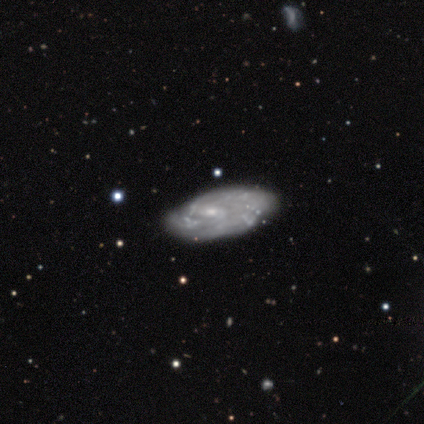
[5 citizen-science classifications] Smooth or featured: featured or disk — 100%
Edge-on disk: no — 100%
Bar: weak — 60% (no — 40%)
Spiral arms: yes — 80% (no — 20%)
Spiral winding: tight — 75% (medium — 25%)
Spiral arm count: can't tell — 75% (2 — 25%)
Bulge size: small — 80% (moderate — 20%)
Merging: none — 60% (major disturbance — 20%)